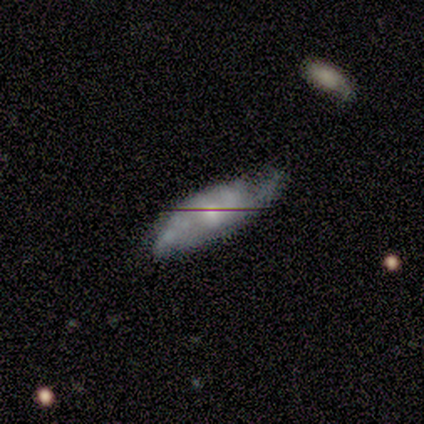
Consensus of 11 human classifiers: This appears to be a featured or disk galaxy (82%) with no bar (57%), 2 (71%) loose (57%) spiral arms (100%) and a moderate central bulge (57%). Merging: minor disturbance (60%).